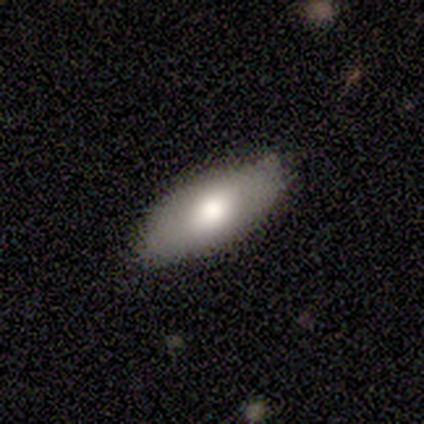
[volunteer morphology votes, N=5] Volunteers were most divided on "smooth or featured" (2-way tie): smooth: 40%, featured or disk: 40%, star or artifact: 20%; "merging" (2-way tie): none: 50%, minor disturbance: 50%, major disturbance: 0%, merger: 0%. More confident: how rounded — in between (100%).